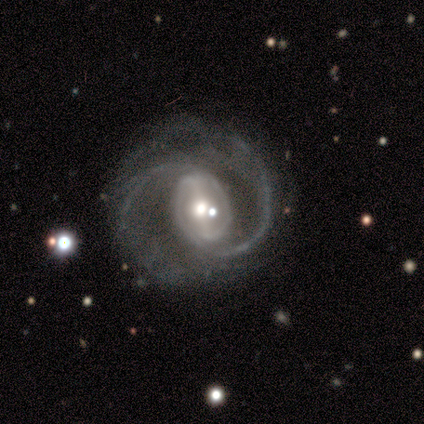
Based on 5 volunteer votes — Morphology: type=featured or disk (100%); edge-on=no (100%); bar=weak (60%); spiral arms=yes (100%); winding=medium (80%); arm count=2 (80%); bulge=moderate (80%); merging=none (40%, tied with minor disturbance).